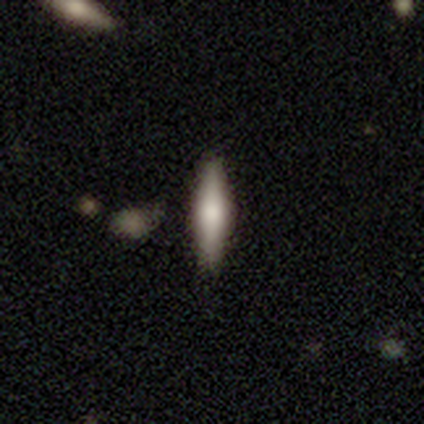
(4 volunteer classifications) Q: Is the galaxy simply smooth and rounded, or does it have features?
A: smooth — 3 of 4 (75%).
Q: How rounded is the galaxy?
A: cigar-shaped — 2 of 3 (67%).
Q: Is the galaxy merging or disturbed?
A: none — 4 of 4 (100%).